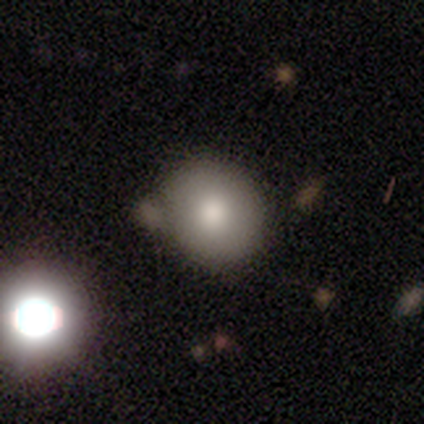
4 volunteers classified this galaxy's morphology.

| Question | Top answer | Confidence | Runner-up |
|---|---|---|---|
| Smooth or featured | smooth | 75% | star or artifact (25%) |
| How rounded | in between | 67% | round (33%) |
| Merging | none | 67% | minor disturbance (33%) |